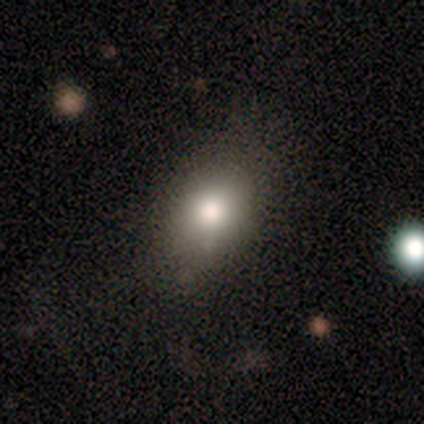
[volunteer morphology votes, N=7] Q: Smooth or featured?
A: smooth (71%); runner-up: featured or disk (29%)
Q: How rounded?
A: in between (100%)
Q: Merging?
A: none (57%); runner-up: minor disturbance (43%)